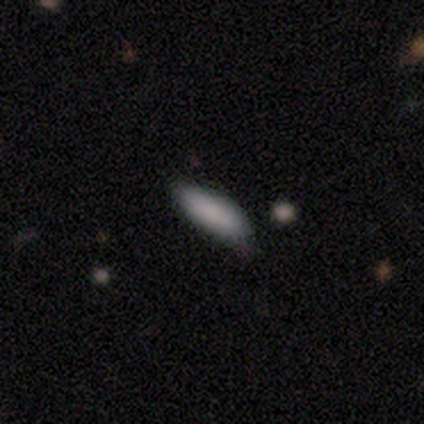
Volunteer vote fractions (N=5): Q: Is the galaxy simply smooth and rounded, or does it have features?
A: smooth — 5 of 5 (100%).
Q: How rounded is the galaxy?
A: in between — 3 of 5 (60%).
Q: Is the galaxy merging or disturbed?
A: none — 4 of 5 (80%).